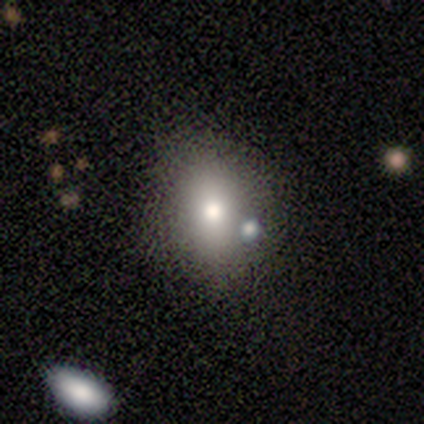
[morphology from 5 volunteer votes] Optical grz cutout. It shows a smooth galaxy with no disk features (80%) that is round (50%, tied with in between). Merging: none (80%).